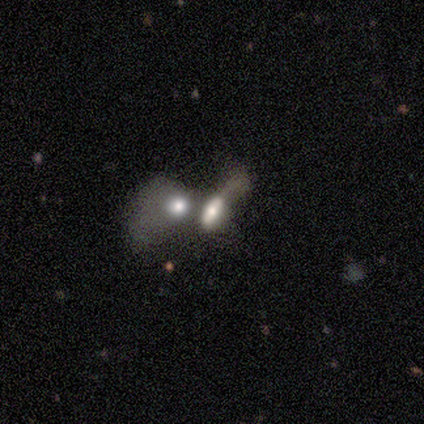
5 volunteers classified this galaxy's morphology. smooth 60%, featured or disk 40%, star or artifact 0%. Down the decision tree: how rounded — in between (67%); merging — merger (80%).